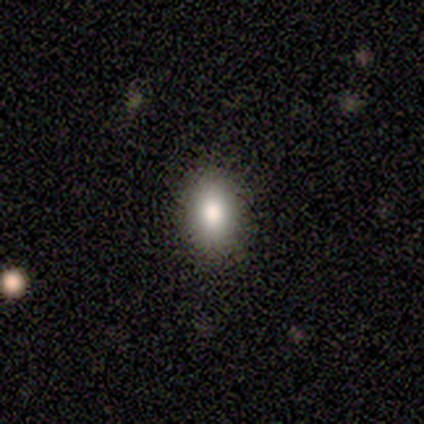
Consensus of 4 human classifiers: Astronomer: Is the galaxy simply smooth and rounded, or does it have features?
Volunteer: smooth — 100%.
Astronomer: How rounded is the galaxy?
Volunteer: in between — 75%.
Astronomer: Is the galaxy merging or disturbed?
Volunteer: none — 100%.